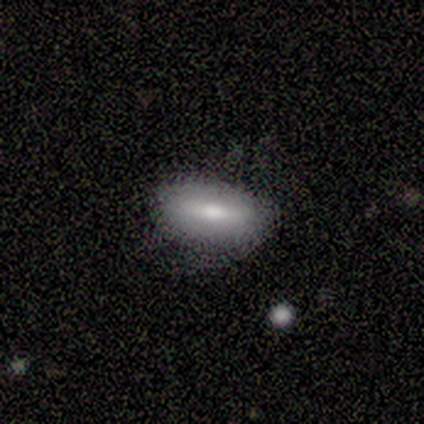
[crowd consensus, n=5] Smooth or featured?
  - smooth: 80% *
  - featured or disk: 20%
  - star or artifact: 0%
How rounded?
  - in between: 75% *
  - cigar-shaped: 25%
  - round: 0%
Merging?
  - none: 80% *
  - minor disturbance: 20%
  - major disturbance: 0%
  - merger: 0%